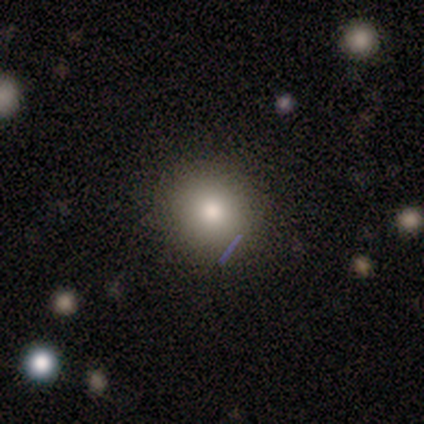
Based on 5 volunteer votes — Morphology: type=smooth (100%); roundness=round (100%); merging=none (100%).